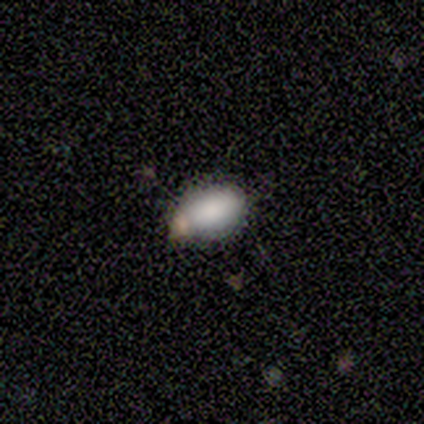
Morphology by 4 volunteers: Smooth or featured? smooth (100%)
How rounded? in between (100%)
Merging? none (75%)